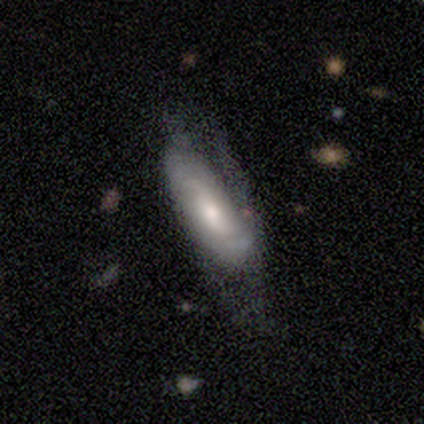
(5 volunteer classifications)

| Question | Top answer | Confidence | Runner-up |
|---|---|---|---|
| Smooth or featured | featured or disk | 60% | smooth (20%) |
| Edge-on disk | yes | 67% | no (33%) |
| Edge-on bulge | boxy | 50% | tied: rounded (50%) |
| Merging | minor disturbance | 50% | none (25%) |